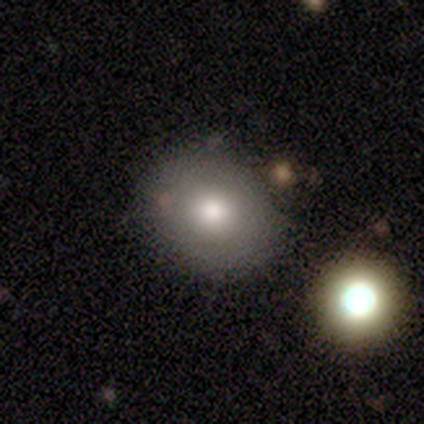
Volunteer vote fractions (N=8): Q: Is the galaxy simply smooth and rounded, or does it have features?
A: smooth — 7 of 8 (88%).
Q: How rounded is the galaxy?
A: round — 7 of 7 (100%).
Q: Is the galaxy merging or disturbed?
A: none — 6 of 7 (86%).